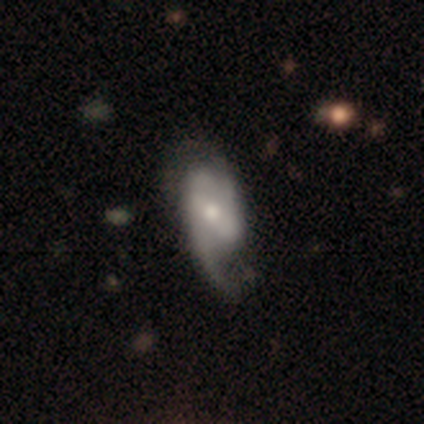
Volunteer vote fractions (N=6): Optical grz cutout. It shows a featured or disk galaxy (83%) with no bar (80%), 2 (80%) loose (60%) spiral arms (100%) and a moderate central bulge (60%). Merging: none (33%, tied with minor disturbance and major disturbance).